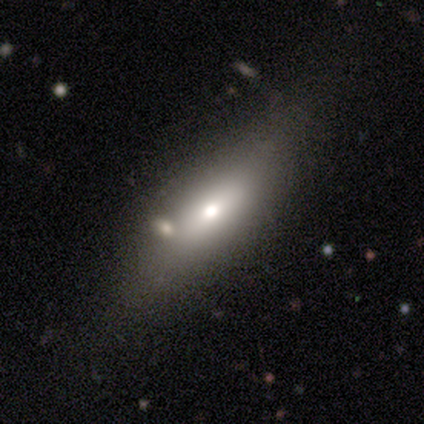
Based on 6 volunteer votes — Smooth or featured: smooth — 50% (tied with featured or disk — 50%)
How rounded: in between — 100%
Merging: none — 33% (tied with minor disturbance — 33%; major disturbance — 33%)